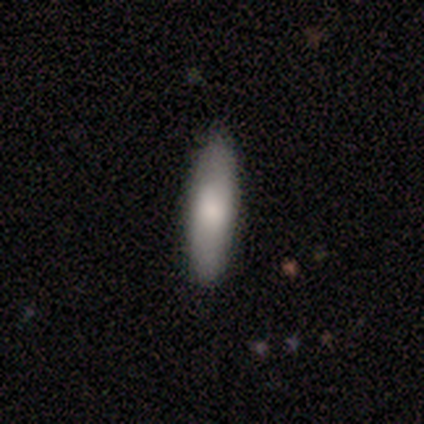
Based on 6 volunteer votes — Smooth or featured: smooth — 50% (featured or disk — 33%)
How rounded: cigar-shaped — 100%
Merging: none — 100%